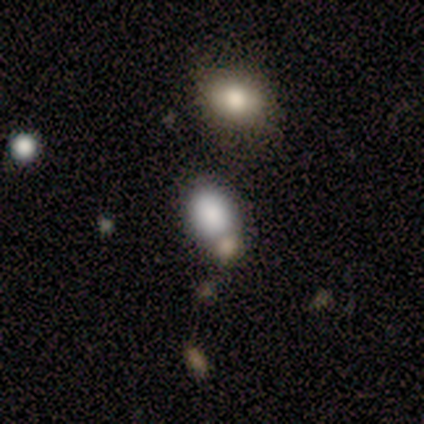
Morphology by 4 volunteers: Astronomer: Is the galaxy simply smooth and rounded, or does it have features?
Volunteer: smooth — 75%.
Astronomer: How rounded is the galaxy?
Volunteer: round — 67%.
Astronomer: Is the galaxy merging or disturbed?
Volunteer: merger — 67%.